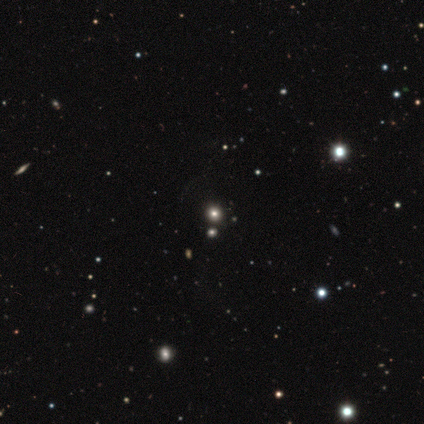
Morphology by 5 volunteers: smooth 60%, star or artifact 40%, featured or disk 0%. Down the decision tree: how rounded — round (100%); merging — none (100%).